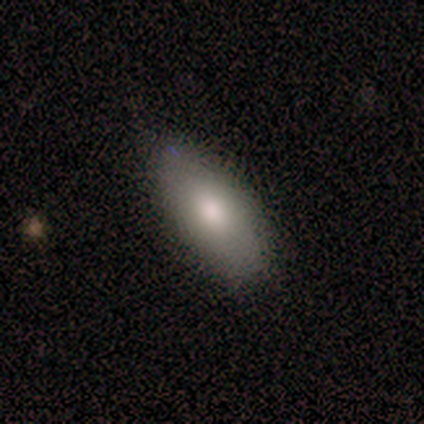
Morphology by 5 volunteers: This appears to be a smooth galaxy with no disk features (60%) that is in between round and cigar-shaped (100%). Merging: none (60%).